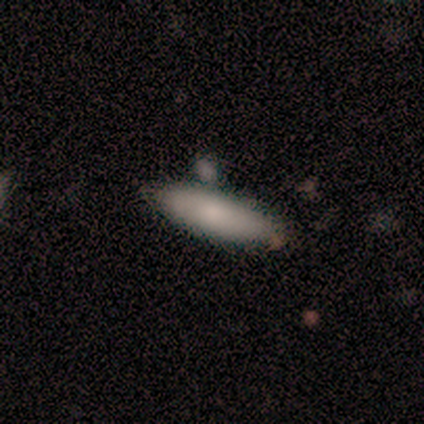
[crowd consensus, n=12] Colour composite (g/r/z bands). It shows a smooth galaxy with no disk features (100%) that is cigar-shaped (67%). Merging: none (75%).